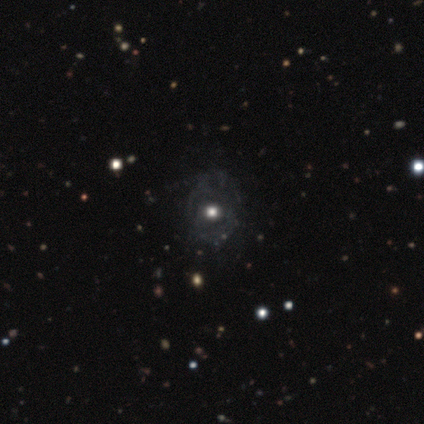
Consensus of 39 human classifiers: A featured or disk galaxy (46%) with no bar (100%), no spiral arms (56%) and a moderate central bulge (75%).

Vote fractions:
- Smooth or featured? featured or disk: 46% / smooth: 36% / star or artifact: 18%
- Edge-on disk? no: 89% / yes: 11%
- Bar? no: 100% / strong: 0% / weak: 0%
- Spiral arms? no: 56% / yes: 44%
- Bulge size? moderate: 75% / large: 25% / dominant: 0% / small: 0% / none: 0%
- Merging? none: 56% / minor disturbance: 9% / major disturbance: 6% / merger: 3%